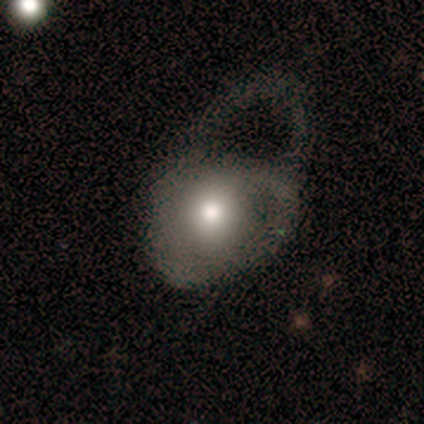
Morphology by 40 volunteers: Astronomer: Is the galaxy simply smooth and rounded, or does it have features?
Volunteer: smooth — 57% (runner-up: featured or disk, 35%).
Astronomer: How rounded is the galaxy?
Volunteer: in between — 70%.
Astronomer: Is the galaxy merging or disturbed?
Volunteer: major disturbance — 65%.